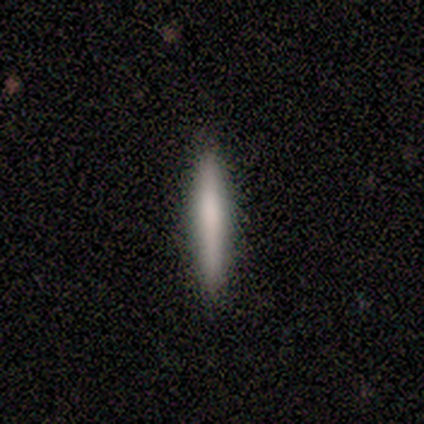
Smooth or featured? 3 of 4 (75%) said smooth. How rounded? 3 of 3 (100%) said cigar-shaped. Merging? 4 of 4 (100%) said none.